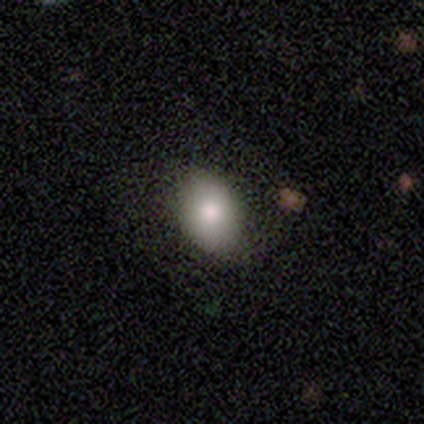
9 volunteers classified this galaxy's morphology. Overall: smooth (89%). How rounded: in between (88%). Merging: none (88%).